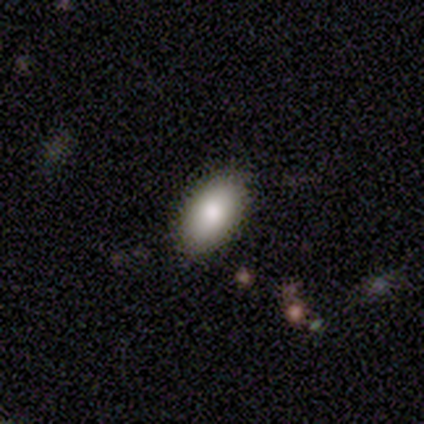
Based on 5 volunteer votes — This is clearly a smooth galaxy (80%). How rounded: likely in between (75%). Merging: clearly none (80%).